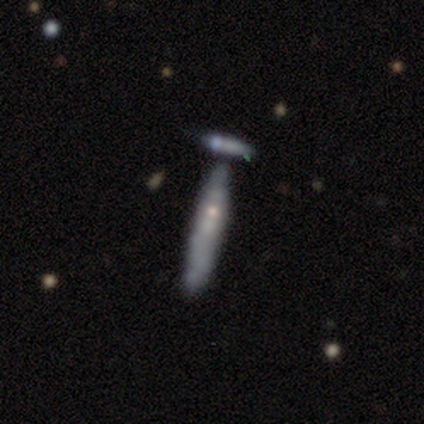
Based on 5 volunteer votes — A featured or disk galaxy (80%) with no bar (100%), no spiral arms (100%) and a moderate central bulge (100%). Merging: none (40%, tied with merger).